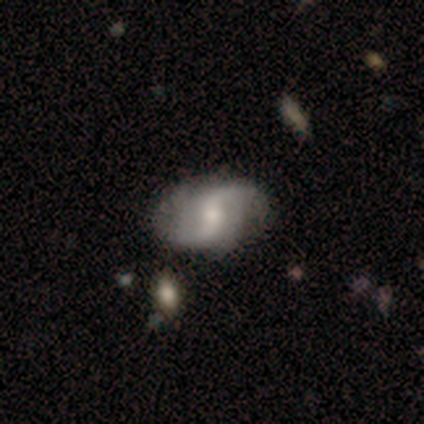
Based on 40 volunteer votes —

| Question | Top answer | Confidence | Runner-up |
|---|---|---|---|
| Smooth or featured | featured or disk | 80% | smooth (10%) |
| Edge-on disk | no | 100% | — |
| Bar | weak | 59% | strong (22%) |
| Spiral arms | yes | 97% | no (3%) |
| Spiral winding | loose | 65% | medium (29%) |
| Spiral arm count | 2 | 87% | 1 (3%) |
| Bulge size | small | 53% | moderate (31%) |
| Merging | none | 61% | minor disturbance (36%) |